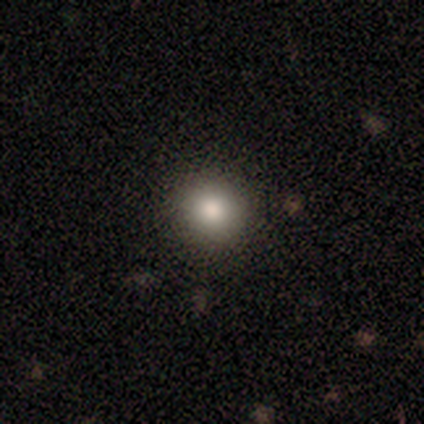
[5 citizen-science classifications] smooth-or-featured: smooth: 100% | featured or disk: 0% | star or artifact: 0%
  how-rounded: round: 80% | in between: 20% | cigar-shaped: 0%
  merging: none: 100% | minor disturbance: 0% | major disturbance: 0% | merger: 0%